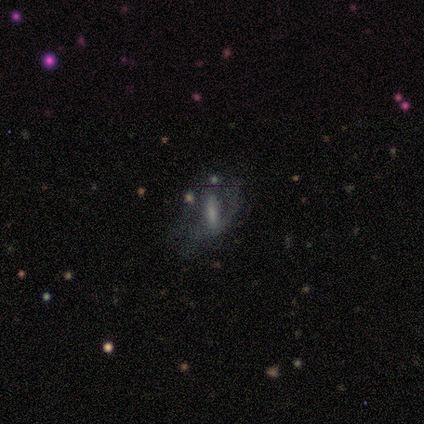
smooth-or-featured: featured or disk: 40% (tied) | star or artifact: 40% (tied) | smooth: 20%
  disk-edge-on: no: 100% | yes: 0%
    bar: weak: 50% (tied) | no: 50% (tied) | strong: 0%
    has-spiral-arms: yes: 50% (tied) | no: 50% (tied)
      spiral-winding: tight: 100% | medium: 0% | loose: 0%
      spiral-arm-count: 2: 100% | 1: 0% | 3: 0% | 4: 0% | more than 4: 0% | can't tell: 0%
    bulge-size: small: 50% (tied) | none: 50% (tied) | dominant: 0% | large: 0% | moderate: 0%
  merging: none: 67% | major disturbance: 33% | minor disturbance: 0% | merger: 0%